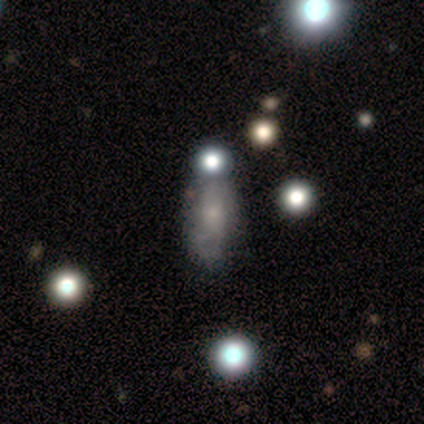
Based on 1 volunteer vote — smooth_or_featured: featured or disk (p=1.00)
disk_edge_on: no (p=1.00)
bar: no (p=1.00)
has_spiral_arms: no (p=1.00)
bulge_size: moderate (p=1.00)
merging: minor disturbance (p=1.00)